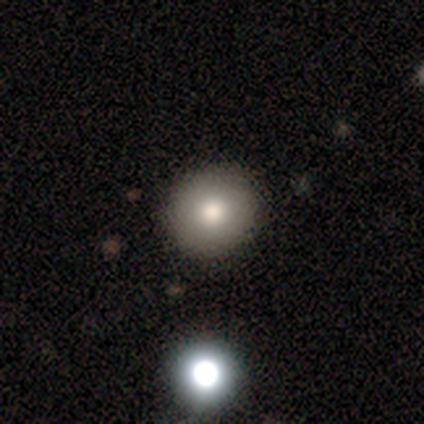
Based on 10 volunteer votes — This is clearly a smooth galaxy (90%). How rounded: clearly round (100%). Merging: clearly none (100%).